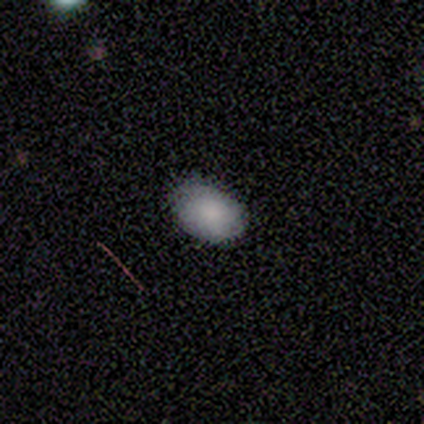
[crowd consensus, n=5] smooth 80%, star or artifact 20%, featured or disk 0%. Down the decision tree: how rounded — in between (75%); merging — none (75%).